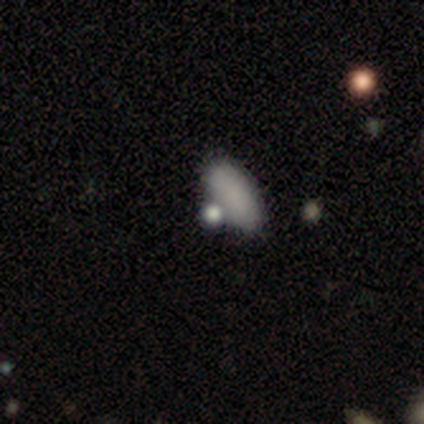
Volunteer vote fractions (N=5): Q: Smooth or featured?
A: smooth (80%); runner-up: star or artifact (20%)
Q: How rounded?
A: in between (100%)
Q: Merging?
A: none (50%); tied with: merger (50%)